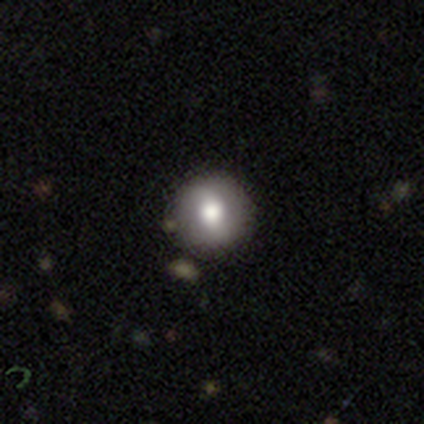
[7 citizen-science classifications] smooth-or-featured: smooth: 86% | featured or disk: 14% | star or artifact: 0%
  how-rounded: round: 100% | in between: 0% | cigar-shaped: 0%
  merging: none: 86% | major disturbance: 14% | minor disturbance: 0% | merger: 0%